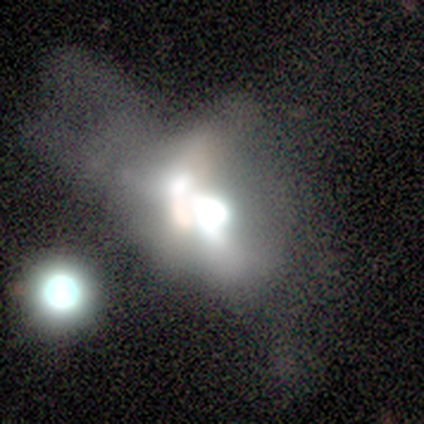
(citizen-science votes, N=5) smooth_or_featured: smooth (p=0.60) [alt: featured or disk p=0.20]
how_rounded: in between (p=0.67) [alt: round p=0.33]
merging: merger (p=0.50) [alt: none p=0.25]